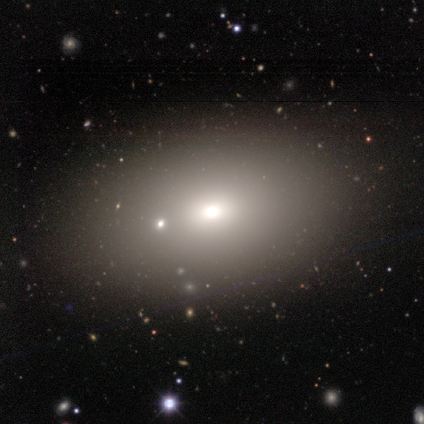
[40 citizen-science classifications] Q: Smooth or featured?
A: smooth (65%); runner-up: star or artifact (22%)
Q: How rounded?
A: in between (88%); runner-up: round (12%)
Q: Merging?
A: none (87%); runner-up: minor disturbance (10%)